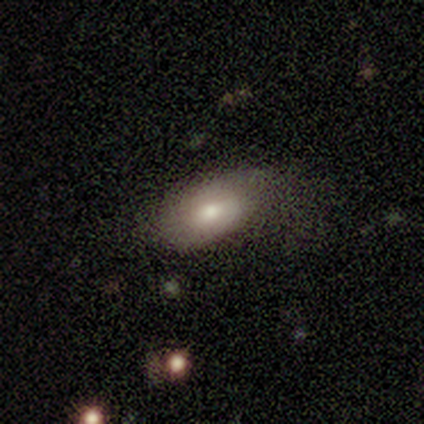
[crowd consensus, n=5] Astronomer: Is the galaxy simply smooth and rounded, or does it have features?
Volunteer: smooth — 80%.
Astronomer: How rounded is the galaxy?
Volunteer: in between — 100%.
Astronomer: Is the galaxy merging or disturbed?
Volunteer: none — 60%.